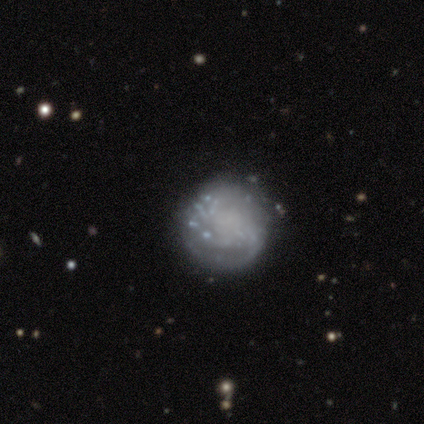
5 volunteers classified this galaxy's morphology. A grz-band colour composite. It shows a featured or disk galaxy (60%) with no bar (100%), 2 (50%, tied with more than 4) tight (50%, tied with medium) spiral arms (67%) and no central bulge (67%). Merging: none (60%).